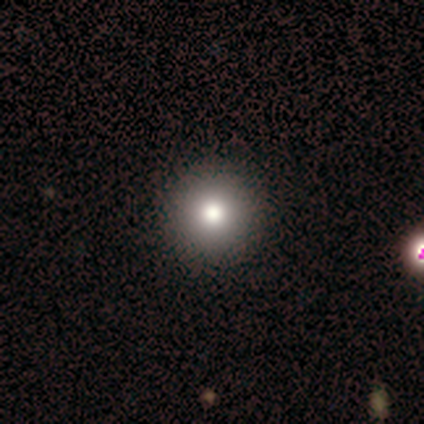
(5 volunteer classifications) Volunteers were most divided on "smooth or featured": smooth: 80%, featured or disk: 20%, star or artifact: 0%. More confident: how rounded — round (100%); merging — none (100%).